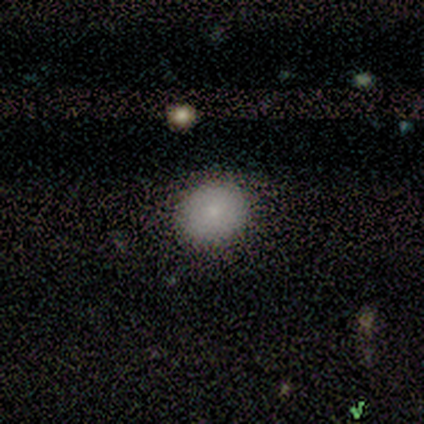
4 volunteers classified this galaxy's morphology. A smooth galaxy with no disk features (100%) that is round (50%, tied with in between). Merging: none (100%).